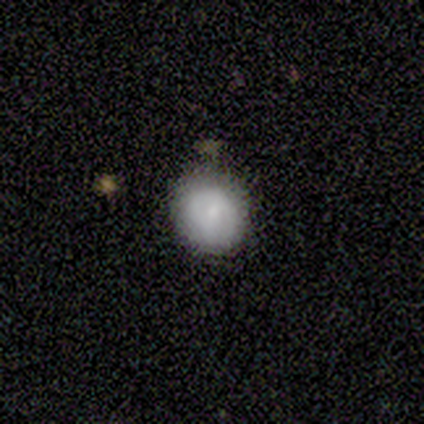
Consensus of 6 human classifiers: smooth 67%, featured or disk 33%, star or artifact 0%. Down the decision tree: how rounded — round (75%); merging — none (100%).